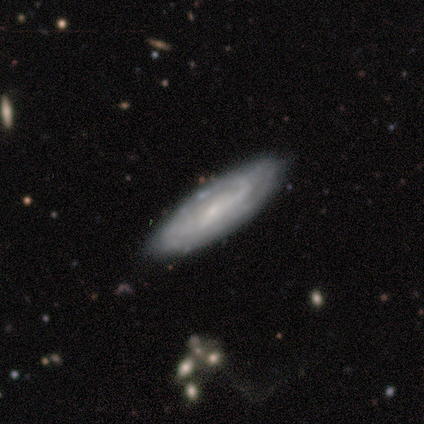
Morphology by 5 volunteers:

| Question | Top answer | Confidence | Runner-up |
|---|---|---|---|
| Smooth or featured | featured or disk | 60% | smooth (40%) |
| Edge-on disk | no | 67% | yes (33%) |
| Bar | strong | 50% | tied: no (50%) |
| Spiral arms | yes | 100% | — |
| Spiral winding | tight | 100% | — |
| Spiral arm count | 1 | 50% | tied: can't tell (50%) |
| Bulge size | small | 50% | tied: none (50%) |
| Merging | none | 80% | minor disturbance (20%) |